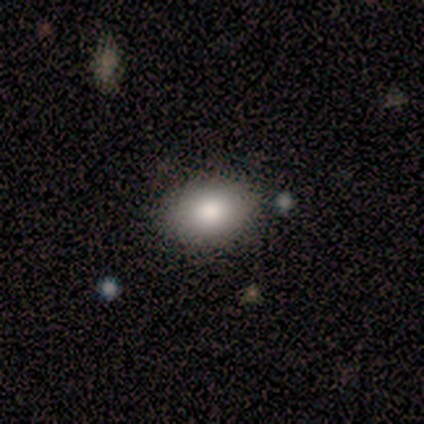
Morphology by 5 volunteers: Smooth or featured?
  - smooth: 100% *
  - featured or disk: 0%
  - star or artifact: 0%
How rounded?
  - in between: 100% *
  - round: 0%
  - cigar-shaped: 0%
Merging?
  - none: 80% *
  - minor disturbance: 20%
  - major disturbance: 0%
  - merger: 0%